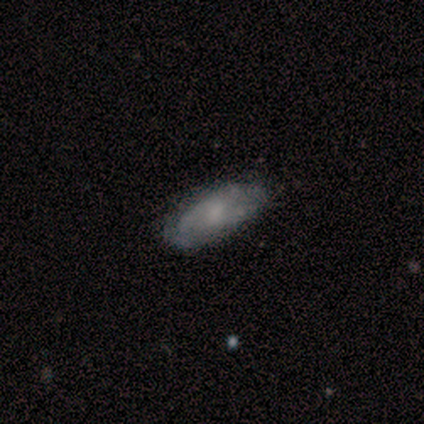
smooth_or_featured: smooth (p=0.56) [alt: featured or disk p=0.44]
how_rounded: in between (p=1.00)
merging: none (p=0.86) [alt: minor disturbance p=0.14]